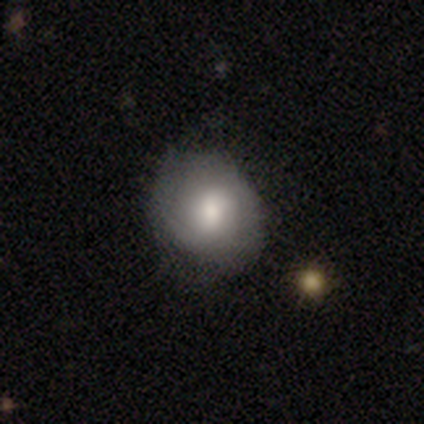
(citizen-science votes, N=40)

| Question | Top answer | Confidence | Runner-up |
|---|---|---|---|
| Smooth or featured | smooth | 55% | featured or disk (38%) |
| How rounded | round | 64% | in between (36%) |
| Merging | none | 76% | minor disturbance (19%) |